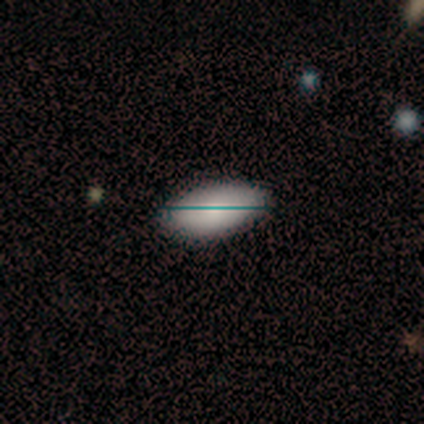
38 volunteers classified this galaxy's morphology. This is likely a smooth galaxy (74%). How rounded: clearly in between (93%). Merging: clearly none (91%).